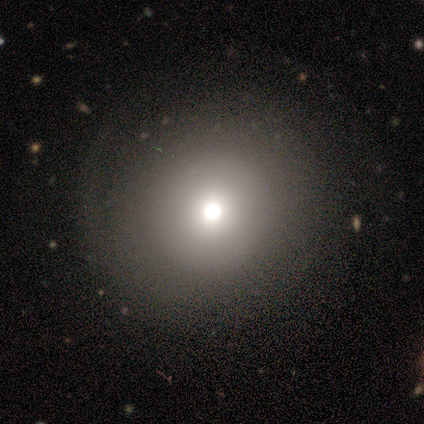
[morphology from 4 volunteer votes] Smooth or featured?
  - smooth: 50% * (tied)
  - star or artifact: 50% * (tied)
  - featured or disk: 0%
How rounded?
  - round: 100% *
  - in between: 0%
  - cigar-shaped: 0%
Merging?
  - none: 100% *
  - minor disturbance: 0%
  - major disturbance: 0%
  - merger: 0%